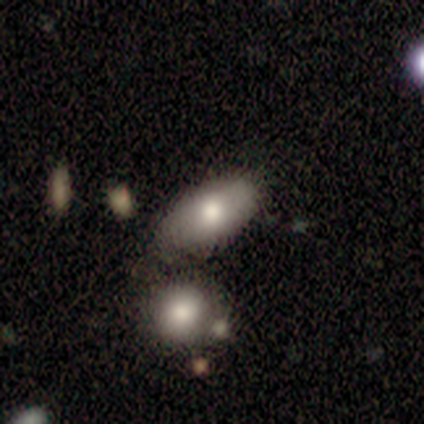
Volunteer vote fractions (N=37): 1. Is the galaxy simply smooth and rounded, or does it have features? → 76% smooth, 16% featured or disk, 8% star or artifact.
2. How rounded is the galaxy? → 93% in between, 4% round, 4% cigar-shaped.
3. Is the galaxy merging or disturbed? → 47% none, 32% minor disturbance, 15% merger, 6% major disturbance.